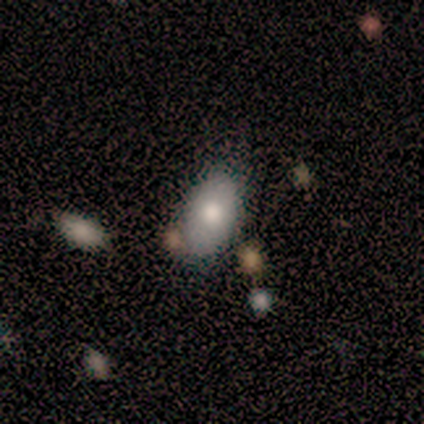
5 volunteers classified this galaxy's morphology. This appears to be a smooth galaxy with no disk features (80%) that is in between round and cigar-shaped (100%). Merging: merger (50%).